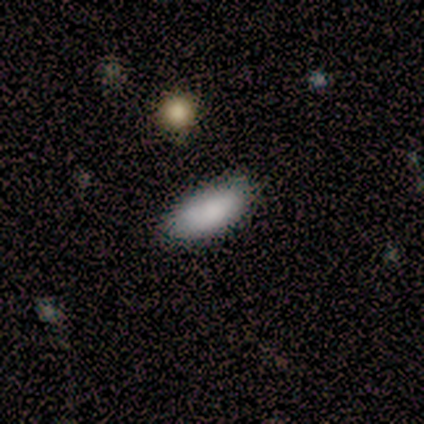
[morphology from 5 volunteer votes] This appears to be a smooth galaxy with no disk features (80%) that is in between round and cigar-shaped (100%). Merging: none (100%).